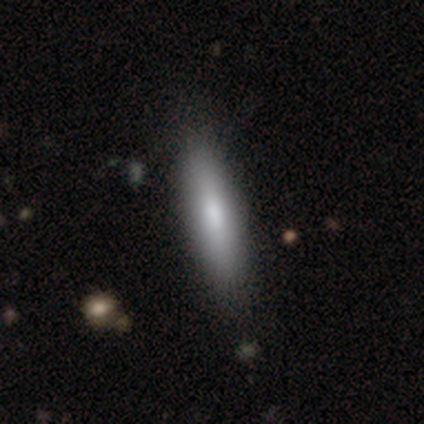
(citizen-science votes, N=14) Smooth or featured? smooth (93%)
How rounded? cigar-shaped (54%)
Merging? none (79%)